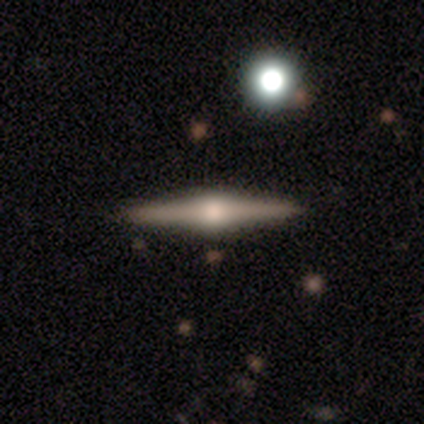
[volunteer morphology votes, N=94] featured or disk 83%, smooth 16%, star or artifact 1%. Down the decision tree: edge-on disk — yes (99%); edge-on bulge — rounded (99%); merging — none (91%).